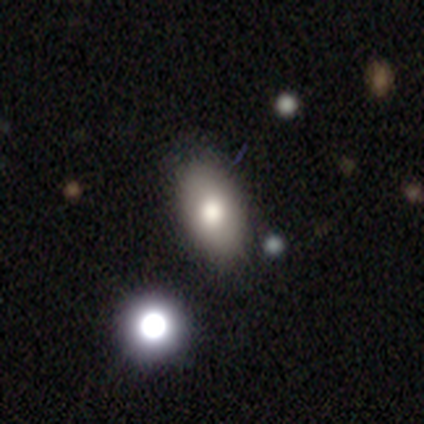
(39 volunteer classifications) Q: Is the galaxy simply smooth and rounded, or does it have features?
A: smooth — 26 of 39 (67%).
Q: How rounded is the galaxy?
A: in between — 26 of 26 (100%).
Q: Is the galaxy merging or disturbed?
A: none — 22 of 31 (71%).